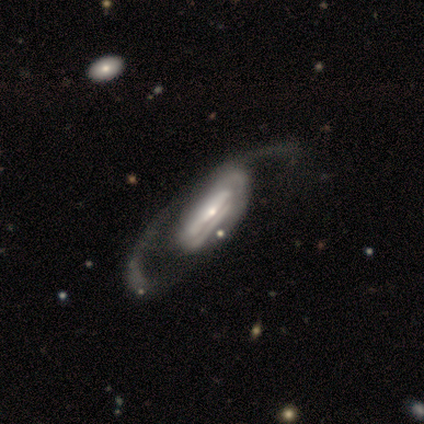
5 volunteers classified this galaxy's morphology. This is clearly a featured or disk galaxy (100%). It is likely not viewed edge-on (60%). Bar: marginally strong (33%, tied with weak and no). Spiral arm pattern: likely no (67%). Central bulge: likely small (67%). Merging: clearly none (100%).